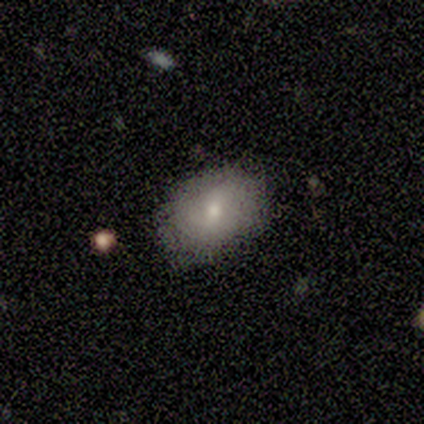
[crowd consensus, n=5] Smooth or featured? smooth (60%)
How rounded? in between (67%)
Merging? none (100%)